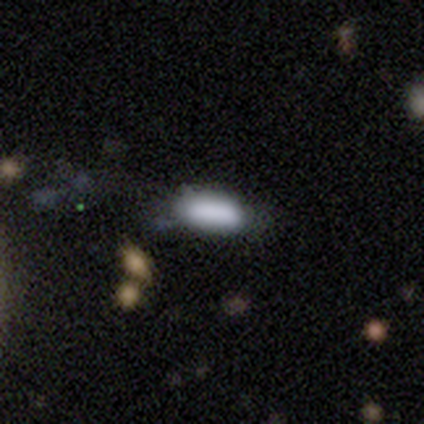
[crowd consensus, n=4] Q: Smooth or featured?
A: smooth (100%)
Q: How rounded?
A: in between (50%); runner-up: round (25%)
Q: Merging?
A: none (75%); runner-up: minor disturbance (25%)